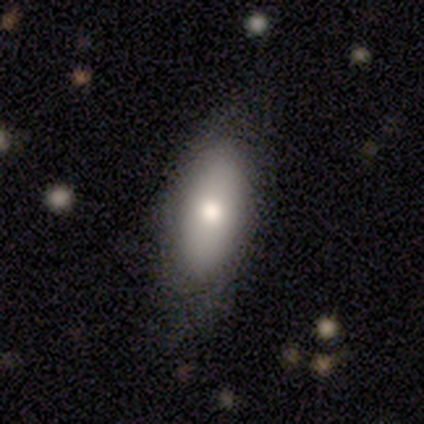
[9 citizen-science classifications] A smooth galaxy with no disk features (67%) that is in between round and cigar-shaped (100%).

Vote fractions:
- Smooth or featured? smooth: 67% / featured or disk: 33% / star or artifact: 0%
- How rounded? in between: 100% / round: 0% / cigar-shaped: 0%
- Merging? none: 78% / minor disturbance: 22% / major disturbance: 0% / merger: 0%